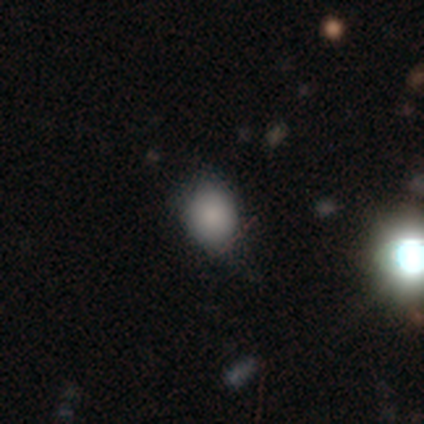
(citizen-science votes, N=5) smooth_or_featured: smooth (p=0.80) [alt: star or artifact p=0.20]
how_rounded: round (p=0.75) [alt: in between p=0.25]
merging: none (p=1.00)